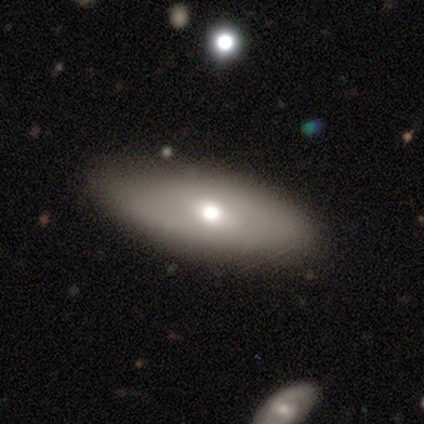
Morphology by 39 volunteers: smooth 59%, featured or disk 36%, star or artifact 5%. Down the decision tree: how rounded — in between (83%); merging — none (89%).